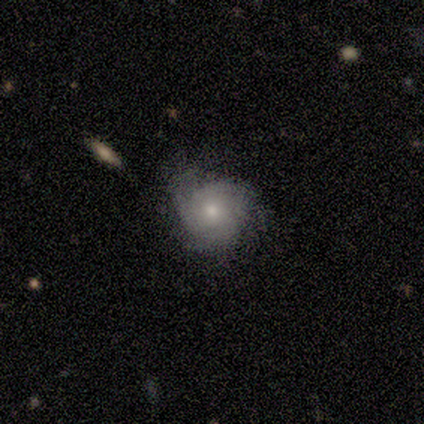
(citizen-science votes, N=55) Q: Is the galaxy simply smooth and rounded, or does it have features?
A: featured or disk — 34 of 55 (62%).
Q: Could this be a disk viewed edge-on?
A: no — 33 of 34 (97%).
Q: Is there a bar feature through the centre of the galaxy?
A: no — 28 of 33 (85%).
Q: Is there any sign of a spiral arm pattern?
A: yes — 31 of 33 (94%).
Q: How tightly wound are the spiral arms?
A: tight — 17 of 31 (55%).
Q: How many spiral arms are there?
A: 3 — 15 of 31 (48%).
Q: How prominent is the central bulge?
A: moderate — 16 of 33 (48%, tied with small).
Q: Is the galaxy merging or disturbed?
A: none — 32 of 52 (62%).